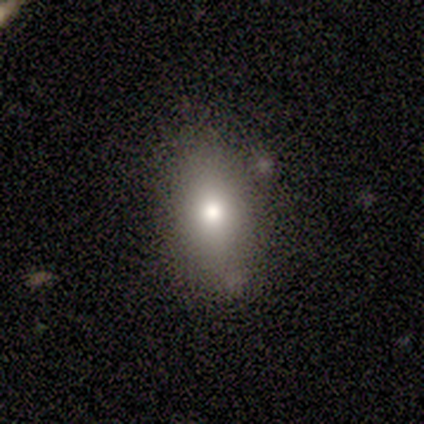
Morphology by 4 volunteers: A smooth galaxy with no disk features (75%) that is round (67%). Merging: none (100%).